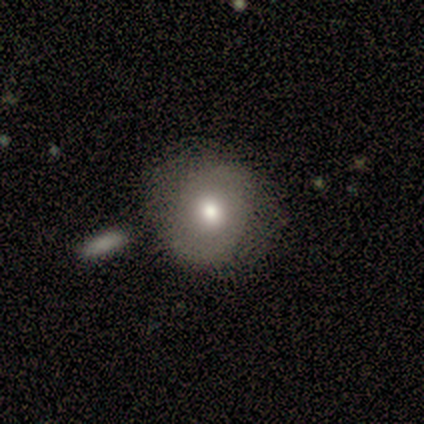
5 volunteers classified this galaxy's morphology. Smooth or featured: smooth — 40% (tied with featured or disk — 40%)
How rounded: round — 50% (tied with in between — 50%)
Merging: none — 50% (minor disturbance — 25%)